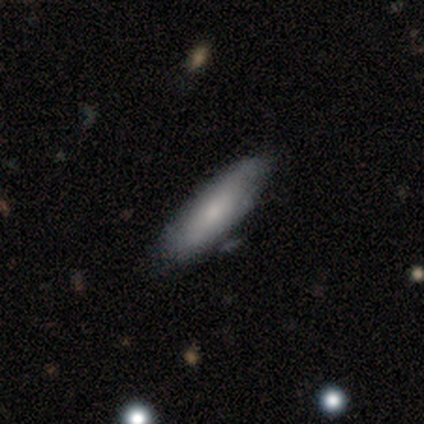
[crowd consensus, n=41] Smooth or featured?
  - smooth: 61% *
  - featured or disk: 32%
  - star or artifact: 7%
How rounded?
  - in between: 52% *
  - cigar-shaped: 48%
  - round: 0%
Merging?
  - none: 53% *
  - minor disturbance: 13%
  - merger: 8%
  - major disturbance: 5%